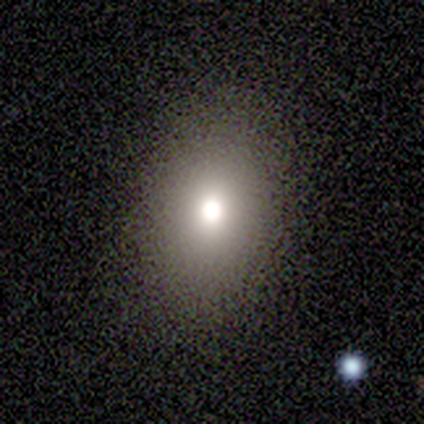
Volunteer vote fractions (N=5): Overall: smooth (80%). How rounded: in between (100%). Merging: none (80%).